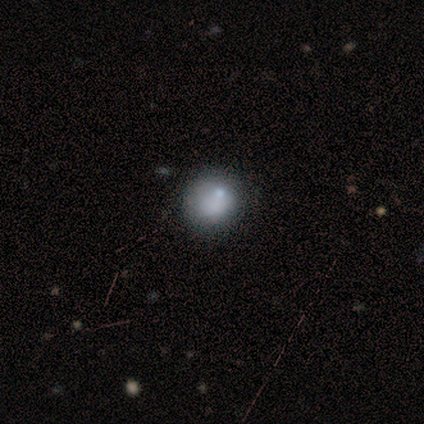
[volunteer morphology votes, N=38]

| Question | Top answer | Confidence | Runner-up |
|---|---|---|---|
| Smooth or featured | smooth | 76% | featured or disk (18%) |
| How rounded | round | 93% | in between (7%) |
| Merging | none | 36% | minor disturbance (14%) |